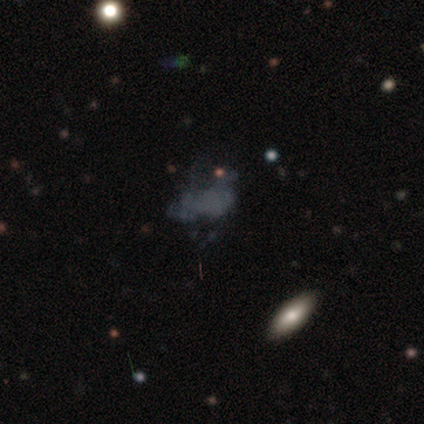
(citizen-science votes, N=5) Smooth or featured?
  - featured or disk: 40% * (tied)
  - star or artifact: 40% * (tied)
  - smooth: 20%
Edge-on disk?
  - no: 100% *
  - yes: 0%
Bar?
  - no: 100% *
  - strong: 0%
  - weak: 0%
Spiral arms?
  - no: 100% *
  - yes: 0%
Bulge size?
  - none: 100% *
  - dominant: 0%
  - large: 0%
  - moderate: 0%
  - small: 0%
Merging?
  - none: 67% *
  - minor disturbance: 33%
  - major disturbance: 0%
  - merger: 0%